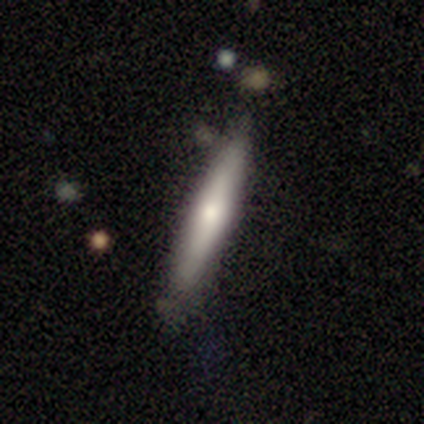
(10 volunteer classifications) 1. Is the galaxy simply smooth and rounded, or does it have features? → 80% smooth, 10% featured or disk, 10% star or artifact.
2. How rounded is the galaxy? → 88% cigar-shaped, 12% in between, 0% round.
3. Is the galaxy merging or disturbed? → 78% none, 22% minor disturbance, 0% major disturbance, 0% merger.